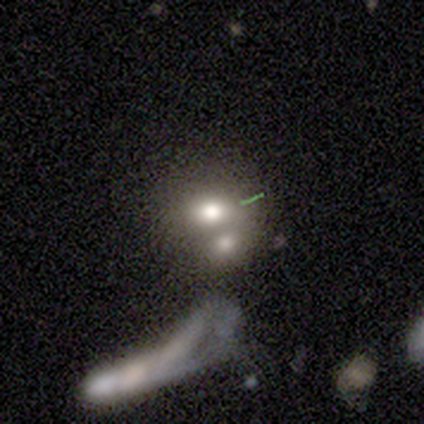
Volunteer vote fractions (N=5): Morphology: type=smooth (100%); roundness=round (80%); merging=merger (80%).